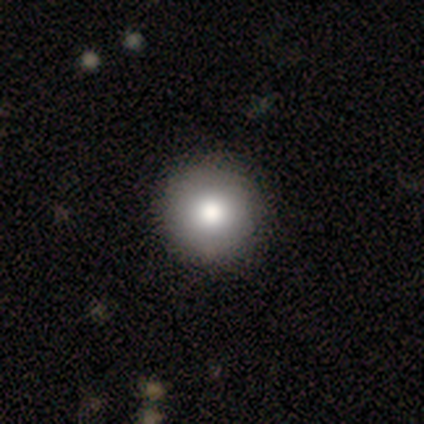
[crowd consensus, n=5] smooth_or_featured: smooth (p=0.80) [alt: featured or disk p=0.20]
how_rounded: round (p=0.75) [alt: in between p=0.25]
merging: none (p=1.00)